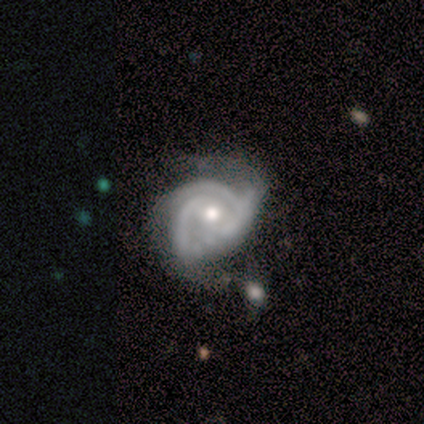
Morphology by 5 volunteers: A featured or disk galaxy (80%) with no bar (100%), 2 (50%, tied with 3) medium (100%) spiral arms (100%) and a moderate central bulge (50%, tied with small). Merging: minor disturbance (75%).